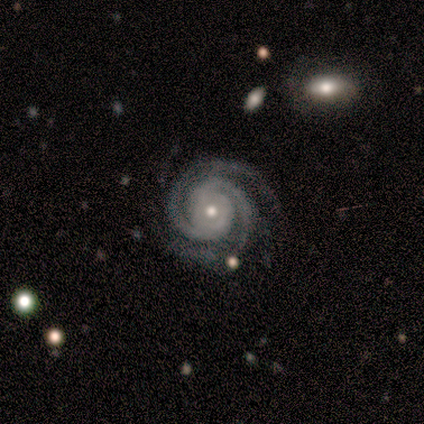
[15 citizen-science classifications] Smooth or featured?
  - featured or disk: 100% *
  - smooth: 0%
  - star or artifact: 0%
Edge-on disk?
  - no: 100% *
  - yes: 0%
Bar?
  - no: 73% *
  - weak: 20%
  - strong: 7%
Spiral arms?
  - yes: 100% *
  - no: 0%
Spiral winding?
  - tight: 93% *
  - medium: 7%
  - loose: 0%
Spiral arm count?
  - 2: 93% *
  - 4: 7%
  - 1: 0%
  - 3: 0%
  - more than 4: 0%
  - can't tell: 0%
Bulge size?
  - small: 73% *
  - moderate: 27%
  - dominant: 0%
  - large: 0%
  - none: 0%
Merging?
  - none: 87% *
  - minor disturbance: 7%
  - merger: 7%
  - major disturbance: 0%